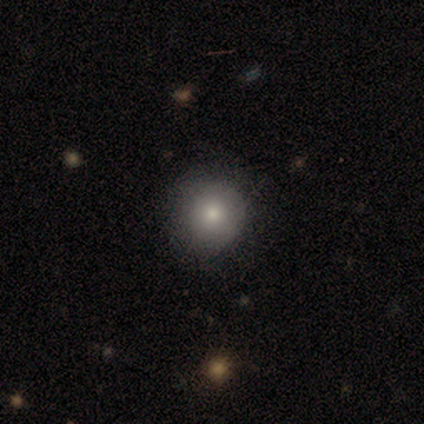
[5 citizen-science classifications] Smooth or featured: smooth — 100%
How rounded: round — 80% (in between — 20%)
Merging: none — 80% (minor disturbance — 20%)